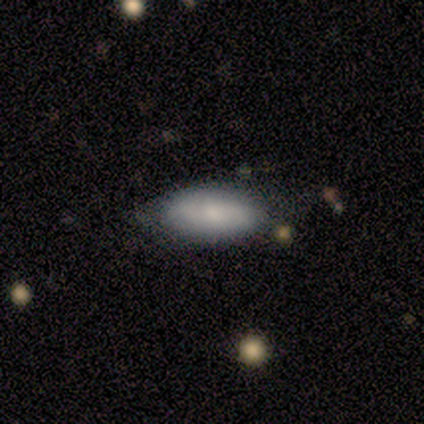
smooth_or_featured: smooth (p=0.75) [alt: featured or disk p=0.25]
how_rounded: in between (p=1.00)
merging: none (p=0.75) [alt: minor disturbance p=0.25]